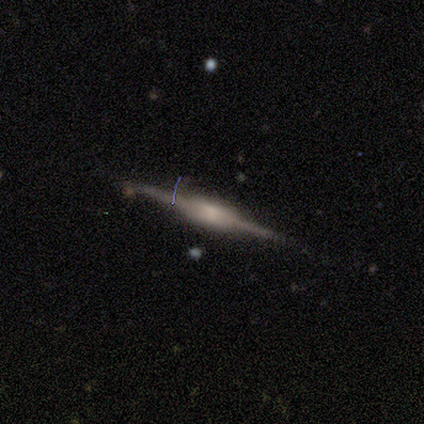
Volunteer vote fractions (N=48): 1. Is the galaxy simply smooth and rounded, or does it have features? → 90% featured or disk, 6% star or artifact, 4% smooth.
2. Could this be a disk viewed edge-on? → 100% yes, 0% no.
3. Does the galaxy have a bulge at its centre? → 72% boxy, 28% rounded, 0% none.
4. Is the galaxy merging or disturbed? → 89% none, 7% minor disturbance, 4% merger, 0% major disturbance.